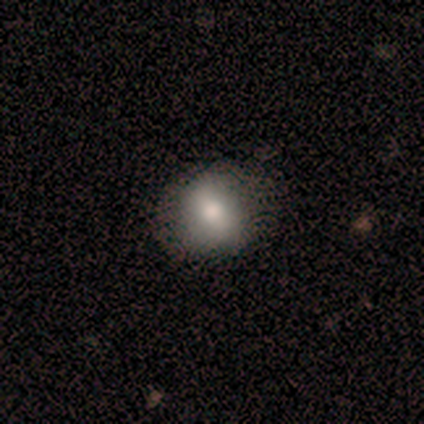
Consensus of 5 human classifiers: smooth 100%, featured or disk 0%, star or artifact 0%. Down the decision tree: how rounded — round (80%); merging — none (100%).